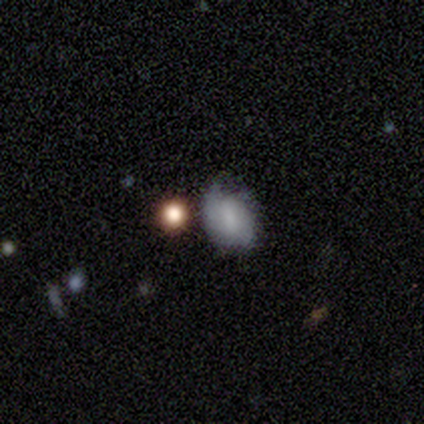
smooth_or_featured: smooth (p=0.80) [alt: featured or disk p=0.20]
how_rounded: in between (p=0.75) [alt: round p=0.25]
merging: minor disturbance (p=0.80) [alt: merger p=0.20]